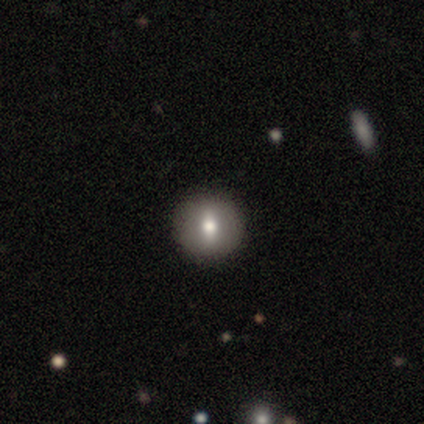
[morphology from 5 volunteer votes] A star or artifact, not a galaxy (60%).